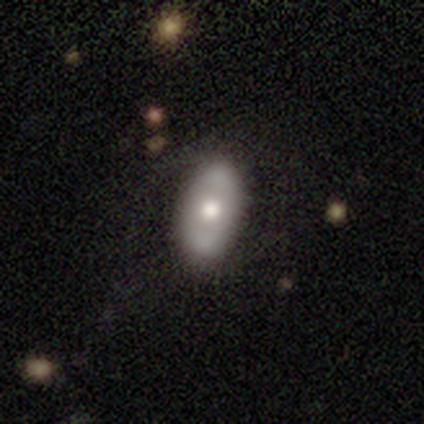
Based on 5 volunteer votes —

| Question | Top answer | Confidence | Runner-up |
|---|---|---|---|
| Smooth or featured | smooth | 80% | featured or disk (20%) |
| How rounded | in between | 100% | — |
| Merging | none | 60% | minor disturbance (20%) |